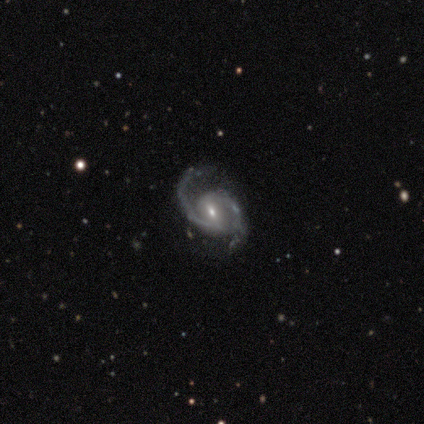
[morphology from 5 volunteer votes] Smooth or featured? featured or disk (100%)
Edge-on disk? no (100%)
Bar? strong (40%, tied with weak)
Spiral arms? yes (100%)
Spiral winding? medium (60%)
Spiral arm count? 2 (100%)
Bulge size? moderate (80%)
Merging? none (80%)